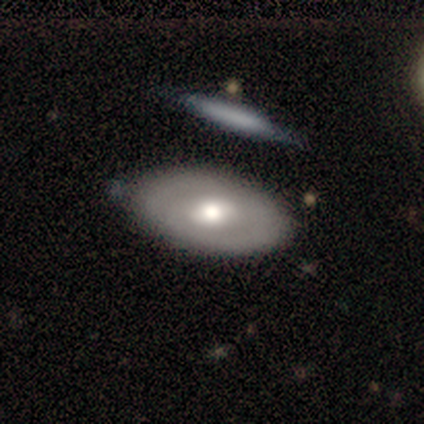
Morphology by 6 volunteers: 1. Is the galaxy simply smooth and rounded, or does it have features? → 67% featured or disk, 33% smooth, 0% star or artifact.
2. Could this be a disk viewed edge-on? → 100% no, 0% yes.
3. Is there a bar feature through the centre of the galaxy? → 50% weak, 25% strong, 25% no.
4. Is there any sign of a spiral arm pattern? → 100% no, 0% yes.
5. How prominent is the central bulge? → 100% moderate, 0% dominant, 0% large, 0% small, 0% none.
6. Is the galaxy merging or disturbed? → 83% none, 17% merger, 0% minor disturbance, 0% major disturbance.